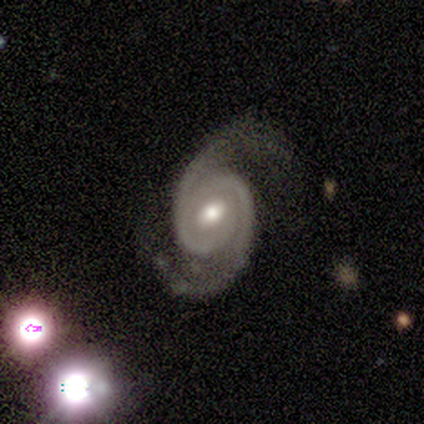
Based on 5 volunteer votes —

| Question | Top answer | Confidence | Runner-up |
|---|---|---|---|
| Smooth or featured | featured or disk | 100% | — |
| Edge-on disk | no | 100% | — |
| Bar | no | 60% | strong (20%) |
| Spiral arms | yes | 100% | — |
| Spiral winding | tight | 80% | medium (20%) |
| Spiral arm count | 2 | 80% | 1 (20%) |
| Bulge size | moderate | 80% | small (20%) |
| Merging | none | 80% | minor disturbance (20%) |